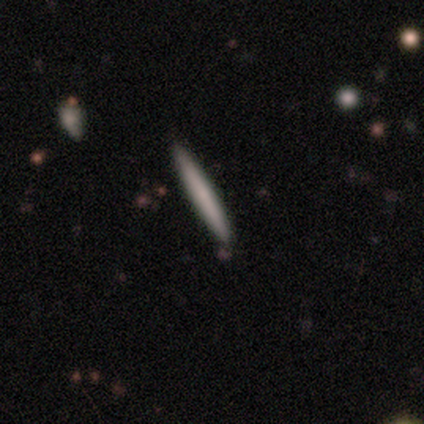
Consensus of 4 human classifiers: Morphology: type=smooth (75%); roundness=cigar-shaped (67%); merging=none (75%).